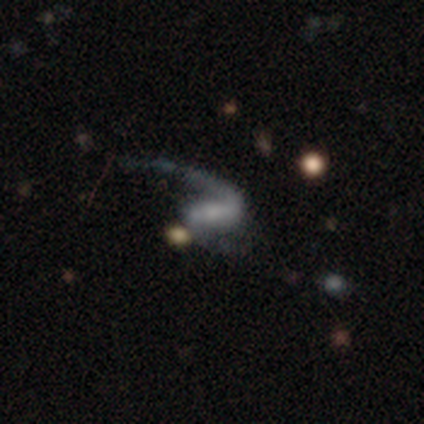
Morphology: type=featured or disk (80%); edge-on=no (100%); bar=no (50%); spiral arms=yes (75%); winding=loose (100%); arm count=2 (100%); bulge=small (50%); merging=none (50%).